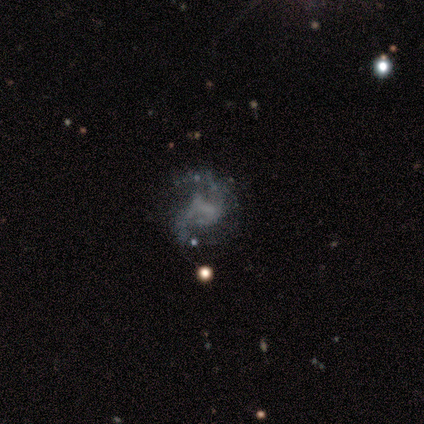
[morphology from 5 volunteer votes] Q: Smooth or featured?
A: featured or disk (80%); runner-up: star or artifact (20%)
Q: Edge-on disk?
A: no (100%)
Q: Bar?
A: no (100%)
Q: Spiral arms?
A: yes (75%); runner-up: no (25%)
Q: Spiral winding?
A: loose (67%); runner-up: tight (33%)
Q: Spiral arm count?
A: 2 (67%); runner-up: 3 (33%)
Q: Bulge size?
A: none (100%)
Q: Merging?
A: none (100%)